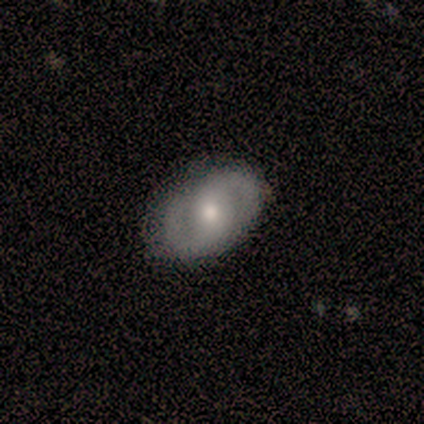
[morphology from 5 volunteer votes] This is clearly a featured or disk galaxy (80%). It is clearly not viewed edge-on (100%). Bar: possibly weak (50%). Spiral arm pattern: likely no (75%). Central bulge: likely moderate (75%). Merging: likely none (60%).